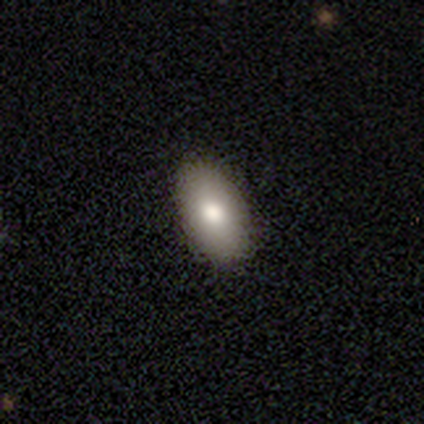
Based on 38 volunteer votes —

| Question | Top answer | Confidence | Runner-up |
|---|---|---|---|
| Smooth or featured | smooth | 61% | featured or disk (29%) |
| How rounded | in between | 96% | cigar-shaped (4%) |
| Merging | none | 94% | minor disturbance (6%) |